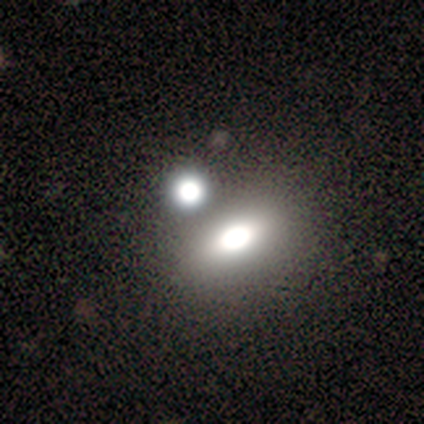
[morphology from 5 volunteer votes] type=smooth (100%); roundness=in between (60%); merging=none (80%).